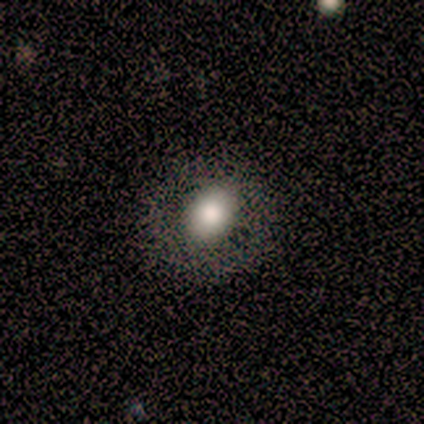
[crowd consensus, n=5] This is likely a smooth galaxy (60%). How rounded: likely in between (67%). Merging: clearly none (80%).